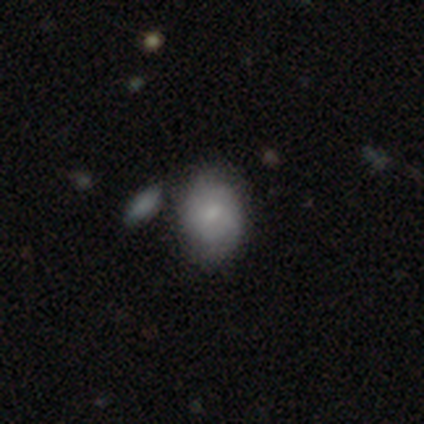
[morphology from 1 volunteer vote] smooth-or-featured: featured or disk: 100% | smooth: 0% | star or artifact: 0%
  disk-edge-on: no: 100% | yes: 0%
    bar: no: 100% | strong: 0% | weak: 0%
    has-spiral-arms: yes: 100% | no: 0%
      spiral-winding: tight: 100% | medium: 0% | loose: 0%
      spiral-arm-count: can't tell: 100% | 1: 0% | 2: 0% | 3: 0% | 4: 0% | more than 4: 0%
    bulge-size: moderate: 100% | dominant: 0% | large: 0% | small: 0% | none: 0%
  merging: none: 100% | minor disturbance: 0% | major disturbance: 0% | merger: 0%